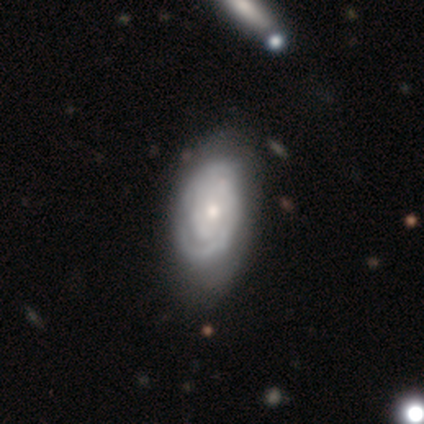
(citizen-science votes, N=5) Volunteers were most divided on "spiral arm count": 1: 40%, 2: 20%, more than 4: 20%, can't tell: 20%, 3: 0%, 4: 0%. More confident: smooth or featured — featured or disk (100%); edge-on disk — no (100%); spiral arms — yes (100%); spiral winding — tight (100%); bulge size — moderate (100%); bar — no (80%); merging — minor disturbance (60%).